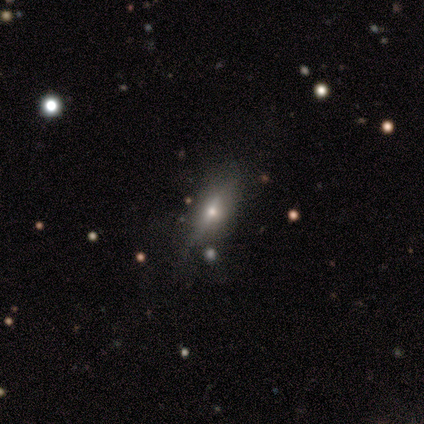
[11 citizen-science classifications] Volunteers were most divided on "smooth or featured": featured or disk: 55%, smooth: 36%, star or artifact: 9%. More confident: edge-on disk — yes (100%); edge-on bulge — rounded (100%); merging — none (60%).